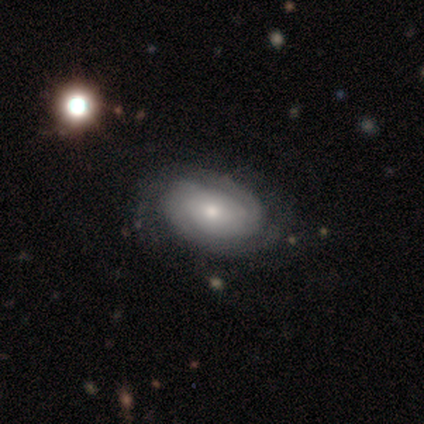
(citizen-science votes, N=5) Morphology: type=featured or disk (100%); edge-on=no (100%); bar=no (100%); spiral arms=yes (80%); winding=tight (75%); arm count=2 (50%, tied with can't tell); bulge=moderate (60%); merging=none (80%).